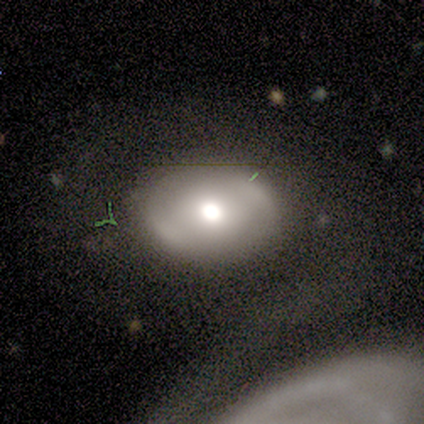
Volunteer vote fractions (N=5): Smooth or featured?
  - smooth: 40% * (tied)
  - featured or disk: 40% * (tied)
  - star or artifact: 20%
How rounded?
  - round: 50% * (tied)
  - in between: 50% * (tied)
  - cigar-shaped: 0%
Merging?
  - none: 50% *
  - minor disturbance: 25%
  - merger: 25%
  - major disturbance: 0%